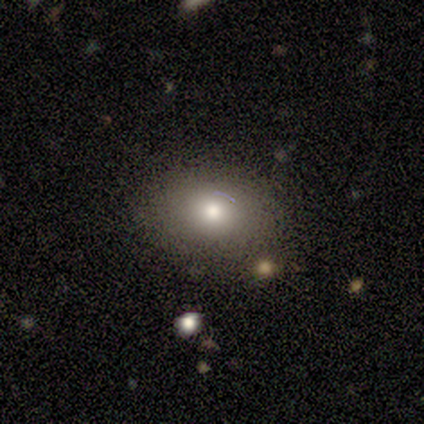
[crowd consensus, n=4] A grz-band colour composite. It shows a smooth galaxy with no disk features (75%) that is in between round and cigar-shaped (100%). Merging: none (50%, tied with minor disturbance).